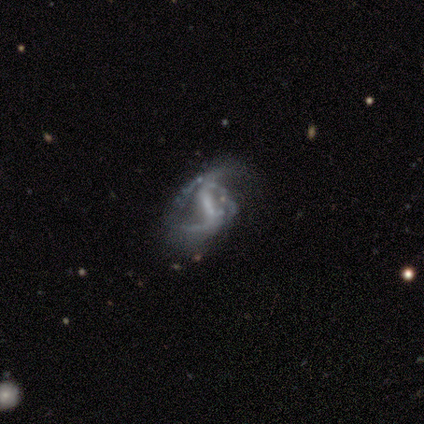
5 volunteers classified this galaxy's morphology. featured or disk 100%, smooth 0%, star or artifact 0%. Down the decision tree: edge-on disk — no (100%); bar — strong (40%, tied with weak); spiral arms — yes (100%); spiral arm count — 2 (60%); spiral winding — medium (60%); bulge size — small (60%); merging — none (40%, tied with major disturbance).